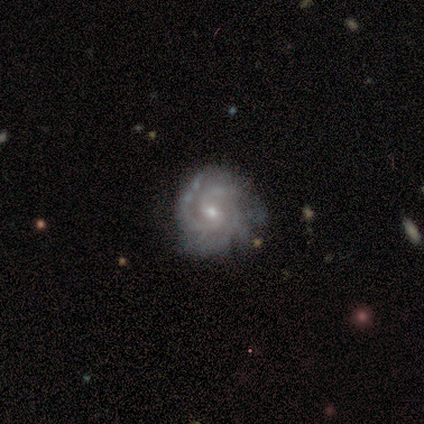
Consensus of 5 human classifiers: featured or disk 100%, smooth 0%, star or artifact 0%. Down the decision tree: edge-on disk — no (100%); bar — no (80%); spiral arms — yes (100%); spiral arm count — 3 (60%); spiral winding — tight (100%); bulge size — moderate (80%); merging — none (60%).